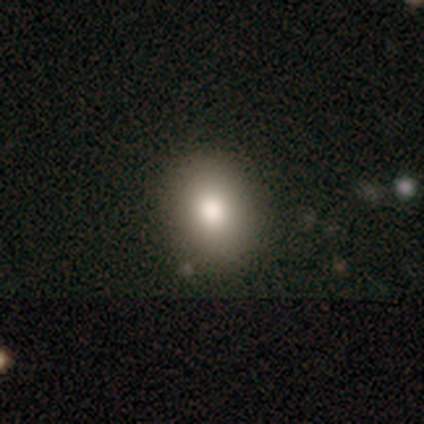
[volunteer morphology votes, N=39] Volunteers were most divided on "how rounded": in between: 58%, round: 42%, cigar-shaped: 0%. More confident: smooth or featured — smooth (85%); merging — none (77%).